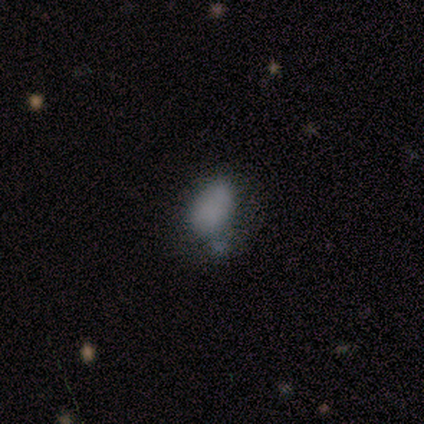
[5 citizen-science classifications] A featured or disk galaxy (60%) with no bar (100%), no spiral arms (100%) and no central bulge (100%). Merging: major disturbance (50%).